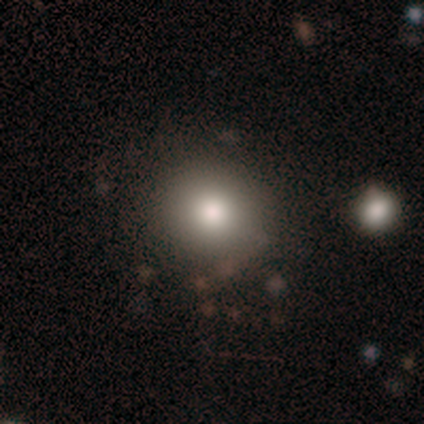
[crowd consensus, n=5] Smooth or featured? 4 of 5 (80%) said smooth. How rounded? 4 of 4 (100%) said round. Merging? 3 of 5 (60%) said none.